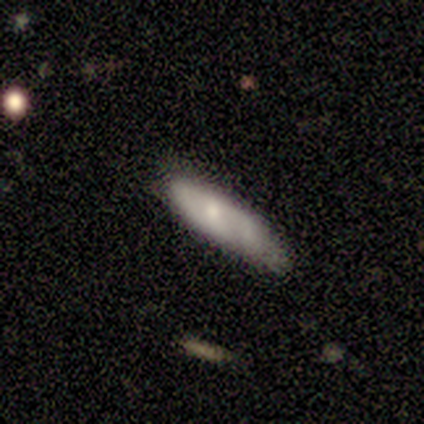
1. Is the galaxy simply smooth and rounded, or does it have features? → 60% featured or disk, 40% smooth, 0% star or artifact.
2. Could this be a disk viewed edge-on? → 100% no, 0% yes.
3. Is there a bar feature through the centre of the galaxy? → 67% no, 33% weak, 0% strong.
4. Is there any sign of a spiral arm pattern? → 67% no, 33% yes.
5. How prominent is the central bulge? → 67% small, 33% moderate, 0% dominant, 0% large, 0% none.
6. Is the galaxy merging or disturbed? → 60% minor disturbance, 20% none, 20% major disturbance, 0% merger.